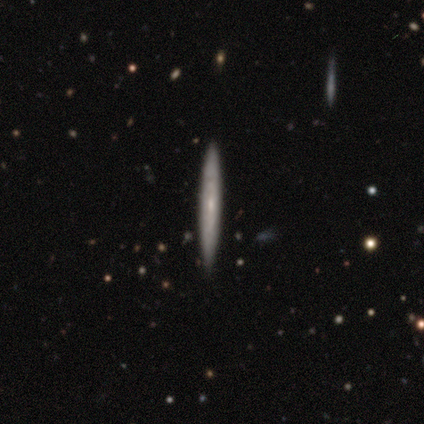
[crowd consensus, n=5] Smooth or featured? 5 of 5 (100%) said featured or disk. Edge-on disk? 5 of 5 (100%) said yes. Edge-on bulge? 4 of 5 (80%) said none. Merging? 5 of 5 (100%) said none.